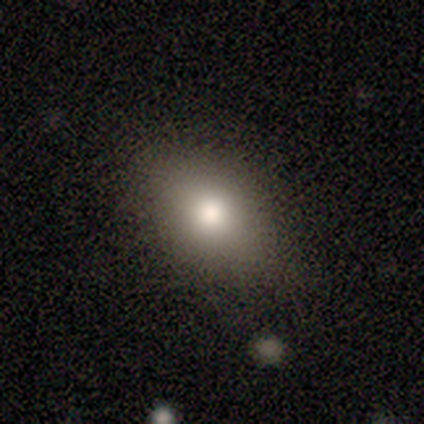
Q: Smooth or featured?
A: smooth (80%); runner-up: featured or disk (20%)
Q: How rounded?
A: in between (100%)
Q: Merging?
A: none (100%)